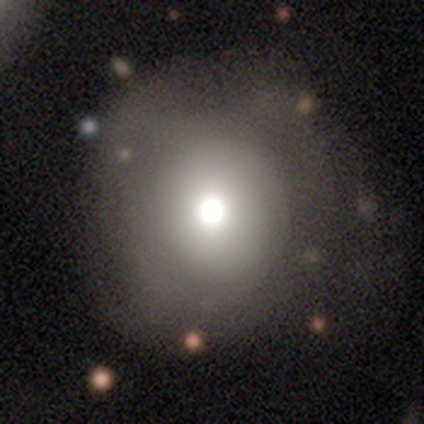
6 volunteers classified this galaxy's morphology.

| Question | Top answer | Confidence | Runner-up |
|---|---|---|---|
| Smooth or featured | smooth | 33% | tied: featured or disk (33%), star or artifact (33%) |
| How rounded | round | 100% | — |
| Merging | none | 75% | major disturbance (25%) |